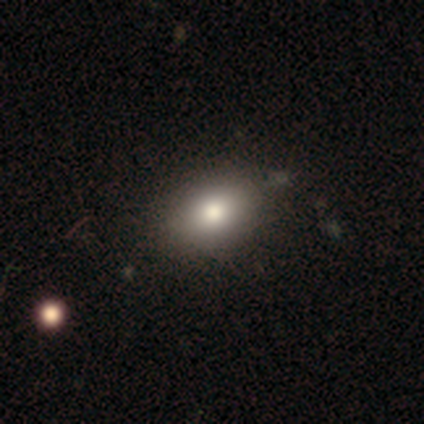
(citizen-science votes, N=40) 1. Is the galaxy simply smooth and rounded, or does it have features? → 80% smooth, 15% featured or disk, 5% star or artifact.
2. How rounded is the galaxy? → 78% in between, 19% round, 3% cigar-shaped.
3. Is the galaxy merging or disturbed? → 82% none, 8% minor disturbance, 3% major disturbance, 3% merger.